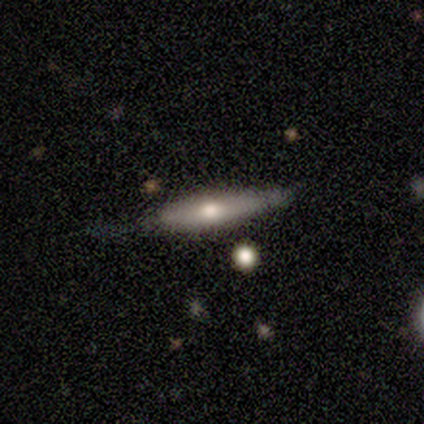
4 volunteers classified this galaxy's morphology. type=smooth (75%); roundness=cigar-shaped (100%); merging=minor disturbance (75%).